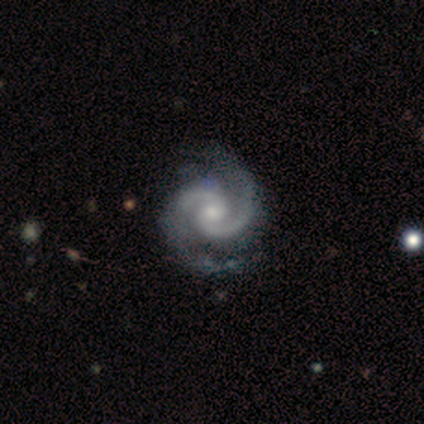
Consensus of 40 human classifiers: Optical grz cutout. It shows a featured or disk galaxy (95%) with no bar (63%), 2 (92%) medium (63%) spiral arms (100%) and a moderate central bulge (58%). Merging: none (50%).